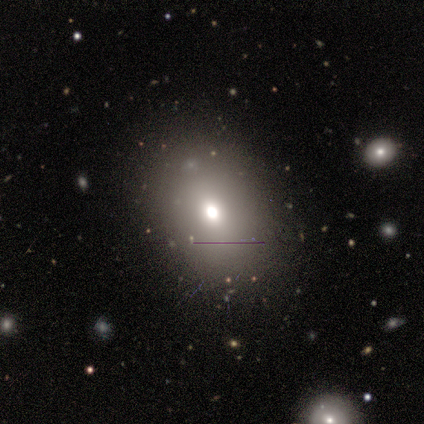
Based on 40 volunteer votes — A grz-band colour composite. It shows a smooth galaxy with no disk features (80%) that is in between round and cigar-shaped (72%). Merging: none (71%).